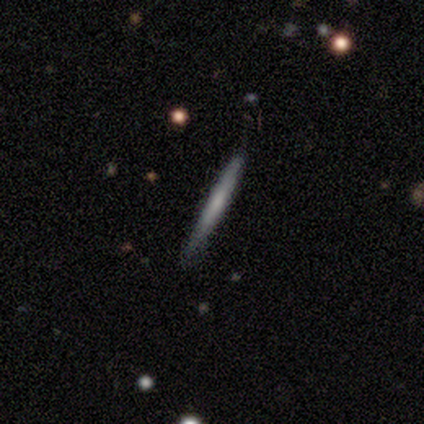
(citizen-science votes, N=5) smooth-or-featured: featured or disk: 80% | smooth: 20% | star or artifact: 0%
  disk-edge-on: yes: 100% | no: 0%
    edge-on-bulge: none: 75% | rounded: 25% | boxy: 0%
  merging: none: 100% | minor disturbance: 0% | major disturbance: 0% | merger: 0%